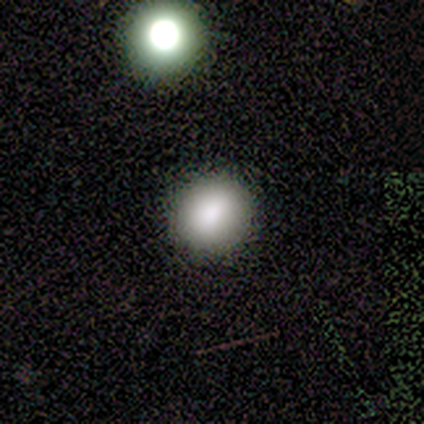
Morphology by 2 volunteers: A smooth galaxy with no disk features (50%, tied with star or artifact) that is in between round and cigar-shaped (100%). Merging: minor disturbance (100%).